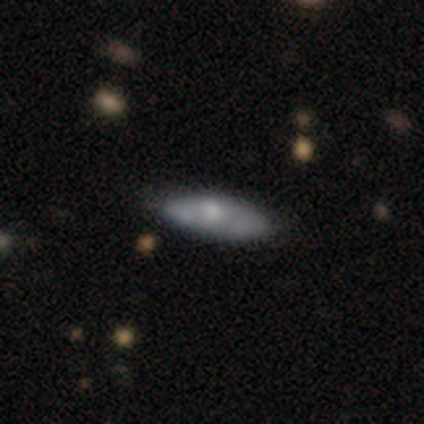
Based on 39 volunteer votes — Volunteers were most divided on "smooth or featured": featured or disk: 51%, smooth: 46%, star or artifact: 3%. Remaining: bar — no (100%); spiral arms — no (86%); merging — none (82%); edge-on disk — no (70%); bulge size — moderate (36%).